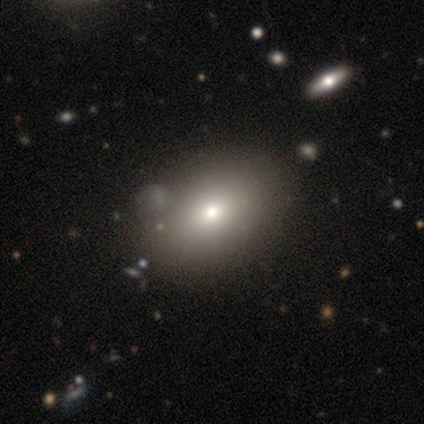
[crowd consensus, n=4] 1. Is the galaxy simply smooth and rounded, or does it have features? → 50% smooth, 25% featured or disk, 25% star or artifact.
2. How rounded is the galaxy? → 100% in between, 0% round, 0% cigar-shaped.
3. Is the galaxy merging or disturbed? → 67% none, 33% major disturbance, 0% minor disturbance, 0% merger.